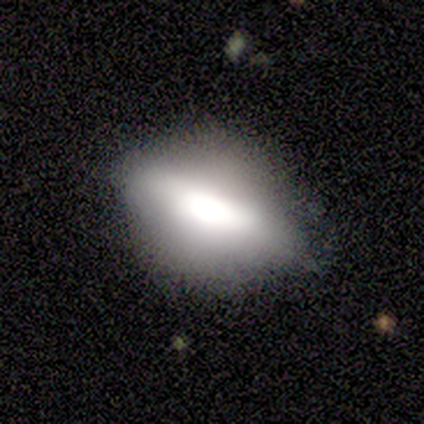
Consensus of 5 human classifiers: This appears to be a smooth galaxy with no disk features (60%) that is in between round and cigar-shaped (67%). Merging: minor disturbance (60%).